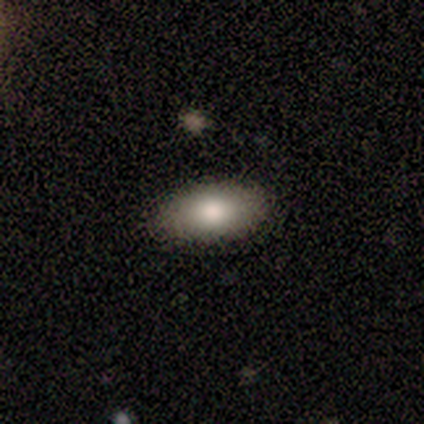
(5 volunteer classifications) Volunteers were most divided on "how rounded": in between: 80%, cigar-shaped: 20%, round: 0%. More confident: smooth or featured — smooth (100%); merging — none (100%).